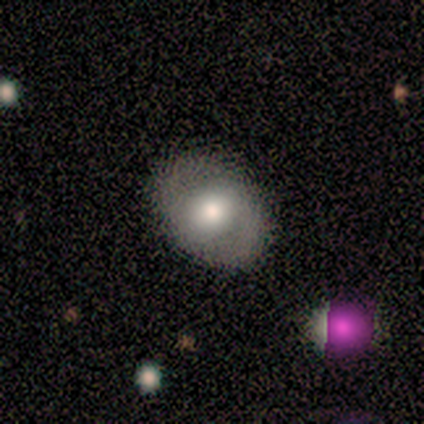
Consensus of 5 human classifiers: Overall: smooth (60%; featured or disk 20%). How rounded: in between (67%; round 33%). Merging: none (75%).